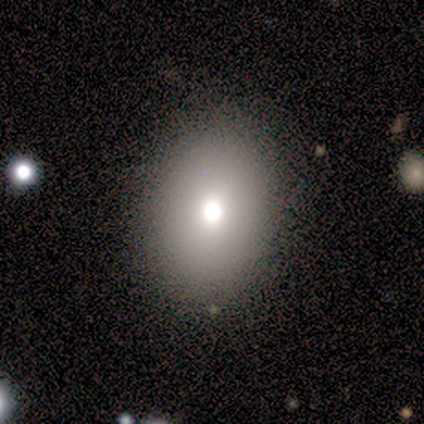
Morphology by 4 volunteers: Q: Smooth or featured?
A: smooth (100%)
Q: How rounded?
A: round (50%); tied with: in between (50%)
Q: Merging?
A: none (75%); runner-up: minor disturbance (25%)